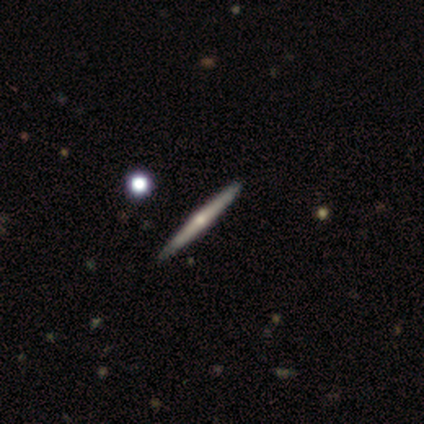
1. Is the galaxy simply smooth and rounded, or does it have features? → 60% featured or disk, 40% smooth, 0% star or artifact.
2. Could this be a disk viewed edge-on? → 100% yes, 0% no.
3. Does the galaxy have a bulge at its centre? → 100% rounded, 0% boxy, 0% none.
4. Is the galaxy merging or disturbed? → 60% none, 40% minor disturbance, 0% major disturbance, 0% merger.